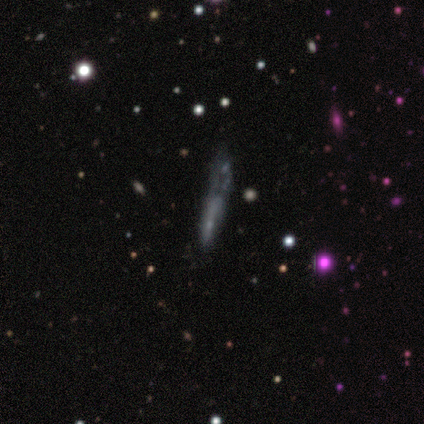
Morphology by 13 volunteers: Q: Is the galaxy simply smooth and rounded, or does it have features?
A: smooth — 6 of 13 (46%, tied with featured or disk).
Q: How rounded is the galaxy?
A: cigar-shaped — 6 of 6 (100%).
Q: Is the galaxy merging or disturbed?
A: minor disturbance — 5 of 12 (42%).